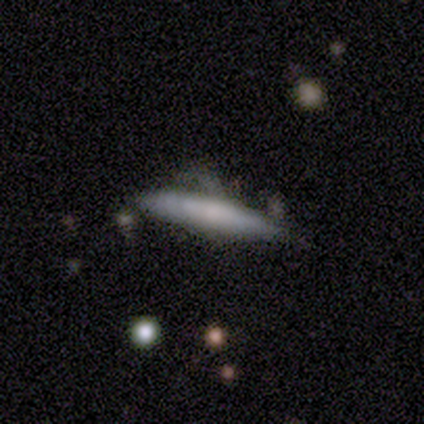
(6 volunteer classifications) Smooth or featured? 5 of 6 (83%) said smooth. How rounded? 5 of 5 (100%) said cigar-shaped. Merging? 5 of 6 (83%) said none.